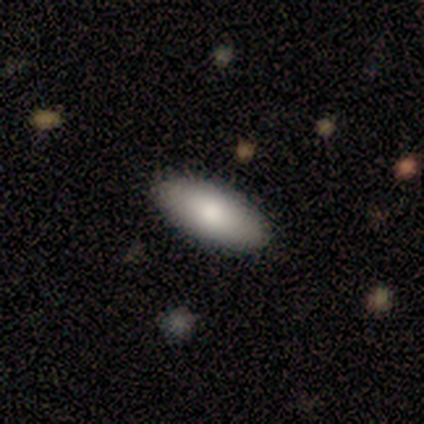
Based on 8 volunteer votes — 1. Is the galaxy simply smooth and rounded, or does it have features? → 100% smooth, 0% featured or disk, 0% star or artifact.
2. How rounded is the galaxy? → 88% in between, 12% cigar-shaped, 0% round.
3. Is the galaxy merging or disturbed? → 88% none, 12% minor disturbance, 0% major disturbance, 0% merger.